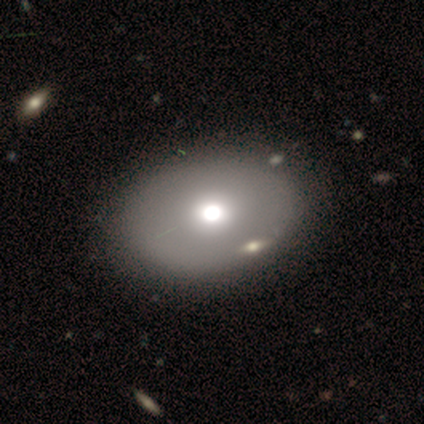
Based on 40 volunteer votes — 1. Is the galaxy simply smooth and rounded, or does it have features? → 80% smooth, 12% featured or disk, 8% star or artifact.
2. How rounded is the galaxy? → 72% in between, 28% round, 0% cigar-shaped.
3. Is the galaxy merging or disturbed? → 65% none, 11% merger, 3% minor disturbance, 3% major disturbance.